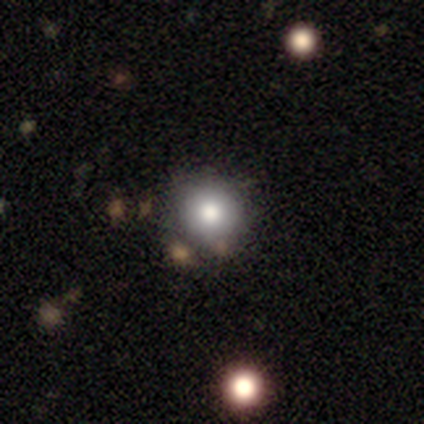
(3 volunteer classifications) A smooth galaxy with no disk features (67%) that is round (100%).

Vote fractions:
- Smooth or featured? smooth: 67% / star or artifact: 33% / featured or disk: 0%
- How rounded? round: 100% / in between: 0% / cigar-shaped: 0%
- Merging? none: 50% (tied) / minor disturbance: 50% (tied) / major disturbance: 0% / merger: 0%